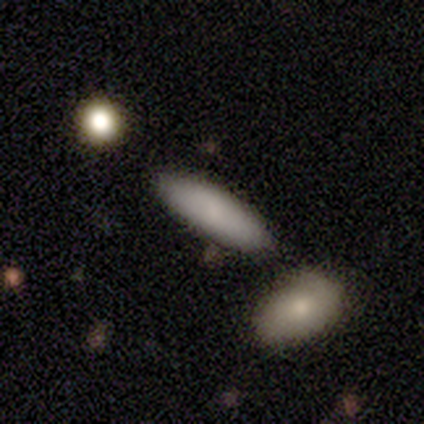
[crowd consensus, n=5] Volunteers were most divided on "how rounded": cigar-shaped: 60%, in between: 40%, round: 0%. More confident: smooth or featured — smooth (100%); merging — none (100%).